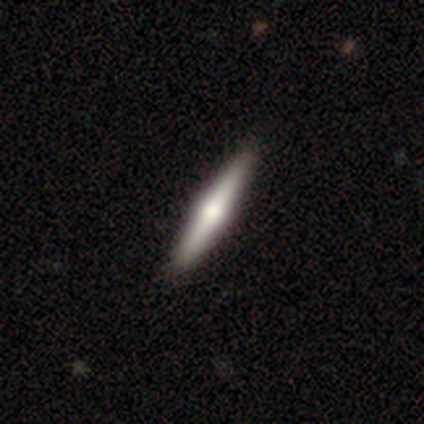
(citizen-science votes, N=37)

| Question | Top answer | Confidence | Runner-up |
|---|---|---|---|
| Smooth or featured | featured or disk | 51% | smooth (49%) |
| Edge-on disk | yes | 100% | — |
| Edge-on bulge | rounded | 89% | none (11%) |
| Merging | none | 62% | minor disturbance (5%) |